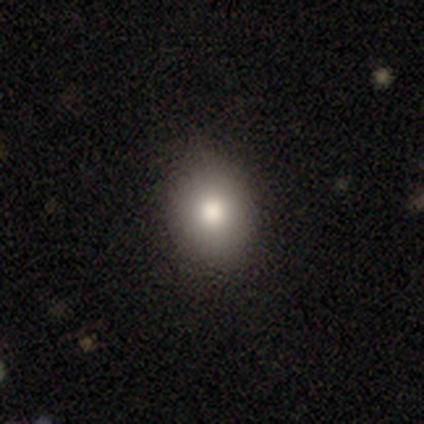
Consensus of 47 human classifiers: Smooth or featured: smooth — 83% (featured or disk — 9%)
How rounded: in between — 54% (round — 46%)
Merging: none — 88% (minor disturbance — 12%)